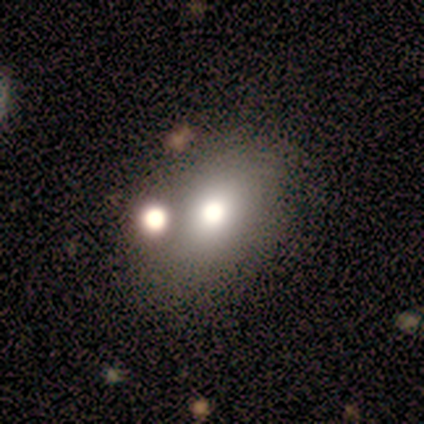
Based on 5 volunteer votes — Smooth or featured? smooth (80%)
How rounded? in between (100%)
Merging? none (60%)